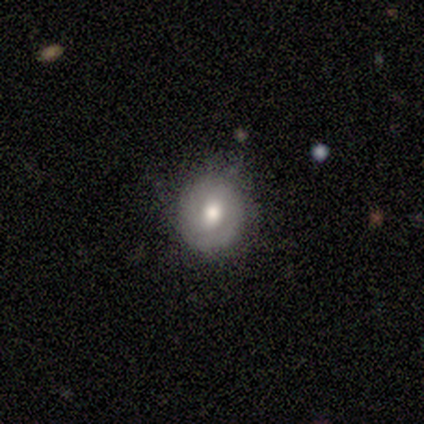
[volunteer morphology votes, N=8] This appears to be a smooth galaxy with no disk features (62%) that is round (100%). Merging: none (50%, tied with minor disturbance).